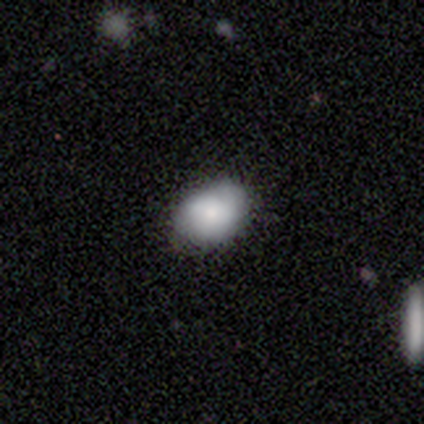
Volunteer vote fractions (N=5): Morphology: type=smooth (60%); roundness=in between (100%); merging=none (100%).